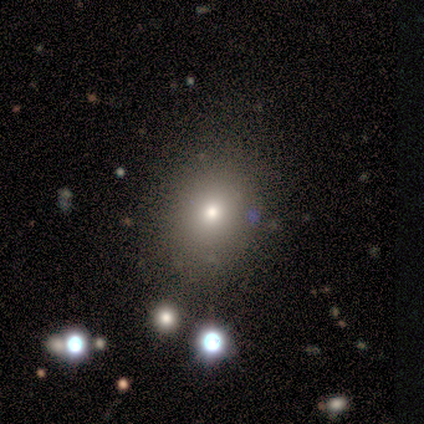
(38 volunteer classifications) Smooth or featured?
  - smooth: 74% *
  - star or artifact: 21%
  - featured or disk: 5%
How rounded?
  - round: 68% *
  - in between: 32%
  - cigar-shaped: 0%
Merging?
  - none: 97% *
  - merger: 3%
  - minor disturbance: 0%
  - major disturbance: 0%